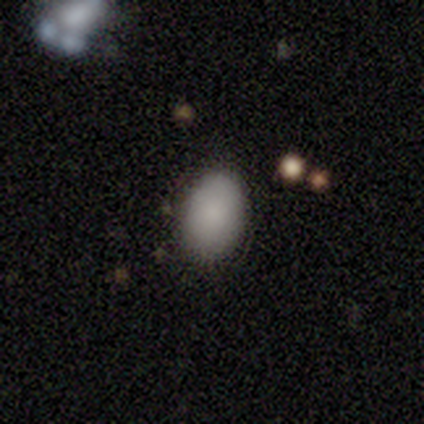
Smooth or featured?
  - smooth: 75% *
  - featured or disk: 25%
  - star or artifact: 0%
How rounded?
  - in between: 100% *
  - round: 0%
  - cigar-shaped: 0%
Merging?
  - none: 50% * (tied)
  - minor disturbance: 50% * (tied)
  - major disturbance: 0%
  - merger: 0%